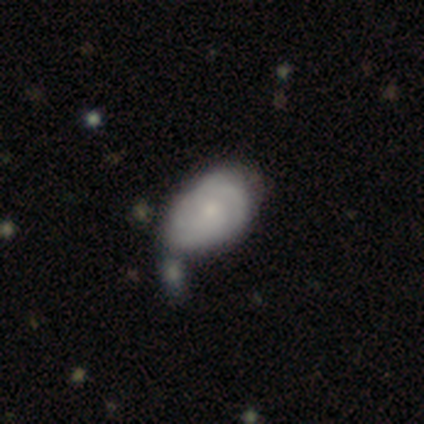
Smooth or featured? featured or disk (50%)
Edge-on disk? no (100%)
Bar? no (79%)
Spiral arms? yes (89%)
Spiral winding? tight (53%)
Spiral arm count? can't tell (41%)
Bulge size? moderate (47%, tied with small)
Merging? merger (36%)